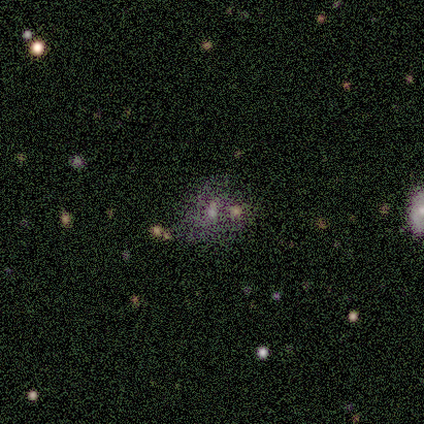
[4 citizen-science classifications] Smooth or featured? star or artifact (50%)